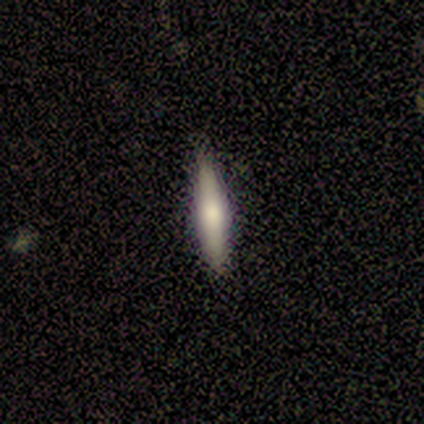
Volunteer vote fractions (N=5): Morphology: type=featured or disk (60%); edge-on=yes (100%); edge-on bulge=rounded (100%); merging=none (80%).